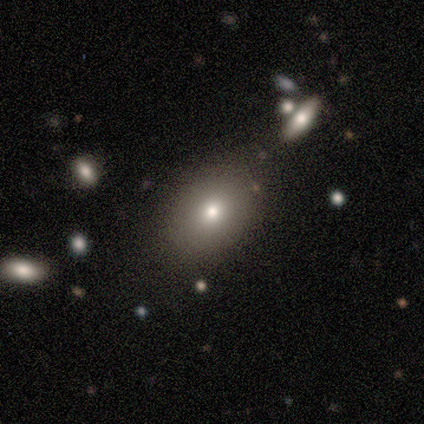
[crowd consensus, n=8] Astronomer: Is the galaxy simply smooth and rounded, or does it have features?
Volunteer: smooth — 100%.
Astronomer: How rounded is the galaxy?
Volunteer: in between — 75%.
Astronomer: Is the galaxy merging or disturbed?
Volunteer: none — 62%.